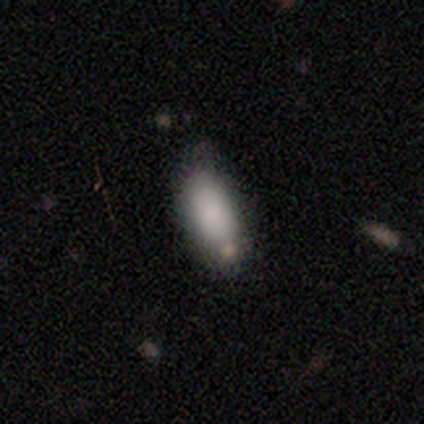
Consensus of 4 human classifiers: Smooth or featured?
  - smooth: 100% *
  - featured or disk: 0%
  - star or artifact: 0%
How rounded?
  - in between: 100% *
  - round: 0%
  - cigar-shaped: 0%
Merging?
  - none: 75% *
  - minor disturbance: 25%
  - major disturbance: 0%
  - merger: 0%